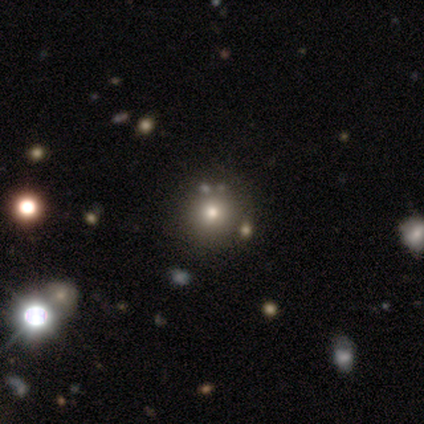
Morphology: type=smooth (80%); roundness=round (100%); merging=none (100%).